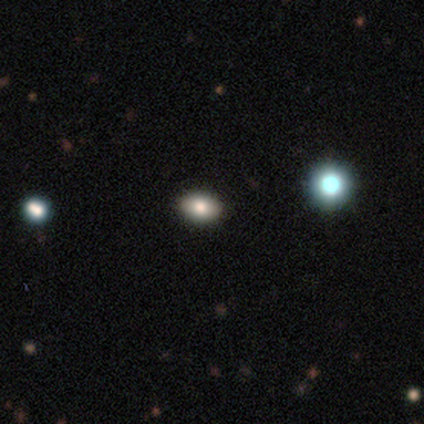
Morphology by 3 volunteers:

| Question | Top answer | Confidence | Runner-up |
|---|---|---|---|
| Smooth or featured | smooth | 100% | — |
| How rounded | in between | 67% | round (33%) |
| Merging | none | 100% | — |